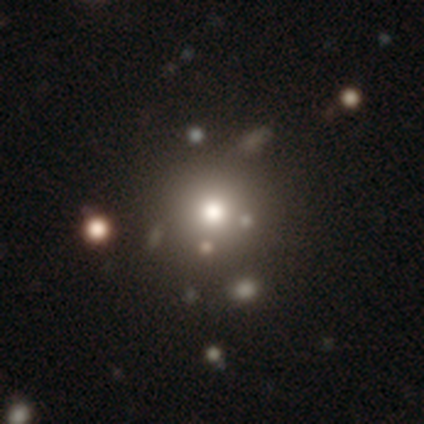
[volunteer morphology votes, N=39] A smooth galaxy with no disk features (54%) that is round (95%). Merging: none (80%).